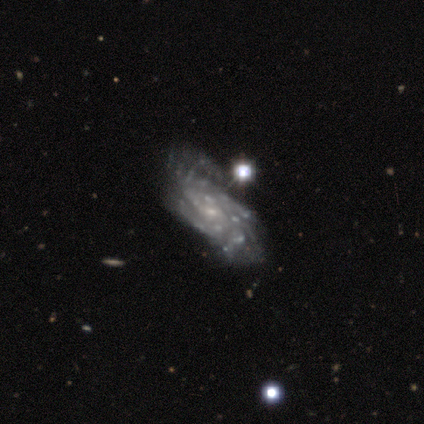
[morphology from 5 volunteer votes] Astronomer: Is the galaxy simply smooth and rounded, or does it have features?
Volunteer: featured or disk — 60%.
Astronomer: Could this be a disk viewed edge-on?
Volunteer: no — 100%.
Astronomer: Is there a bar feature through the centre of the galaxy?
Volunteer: no — 100%.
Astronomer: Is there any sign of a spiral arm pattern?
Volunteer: yes — 100%.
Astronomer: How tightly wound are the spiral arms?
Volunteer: medium — 67%.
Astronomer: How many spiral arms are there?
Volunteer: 4 — 67%.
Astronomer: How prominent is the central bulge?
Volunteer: small — 100%.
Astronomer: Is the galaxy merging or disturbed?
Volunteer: major disturbance — 75%.